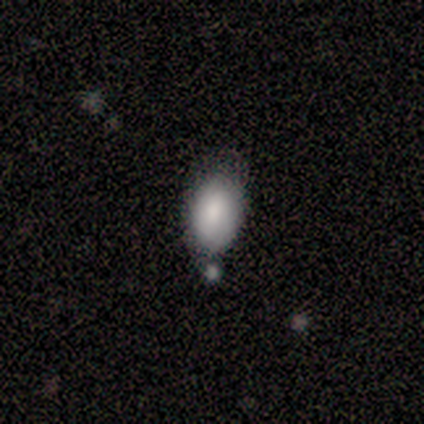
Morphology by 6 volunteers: A smooth galaxy with no disk features (67%) that is in between round and cigar-shaped (100%).

Vote fractions:
- Smooth or featured? smooth: 67% / featured or disk: 33% / star or artifact: 0%
- How rounded? in between: 100% / round: 0% / cigar-shaped: 0%
- Merging? minor disturbance: 83% / none: 17% / major disturbance: 0% / merger: 0%